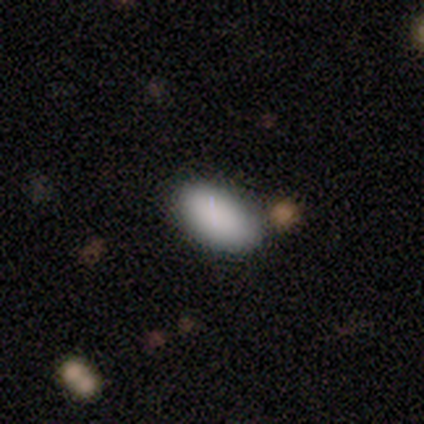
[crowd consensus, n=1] smooth-or-featured: smooth: 100% | featured or disk: 0% | star or artifact: 0%
  how-rounded: in between: 100% | round: 0% | cigar-shaped: 0%
  merging: none: 100% | minor disturbance: 0% | major disturbance: 0% | merger: 0%